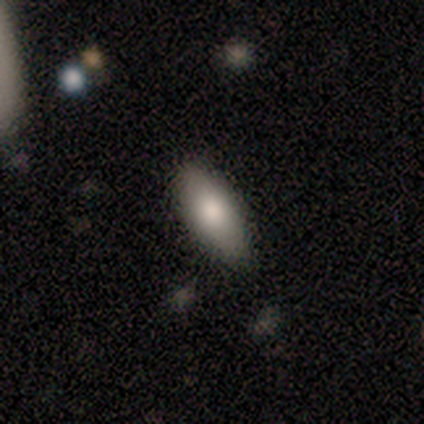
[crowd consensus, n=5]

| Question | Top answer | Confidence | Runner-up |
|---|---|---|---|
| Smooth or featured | smooth | 60% | featured or disk (20%) |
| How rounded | in between | 67% | cigar-shaped (33%) |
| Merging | none | 100% | — |